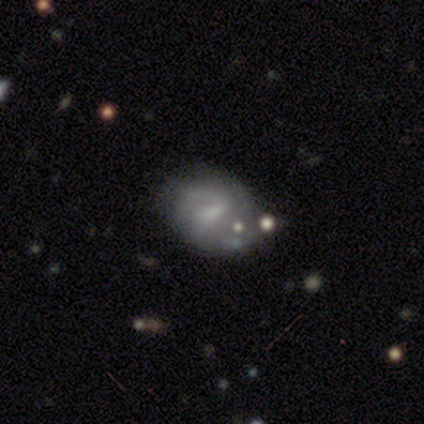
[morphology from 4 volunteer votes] featured or disk 50%, smooth 25%, star or artifact 25%. Down the decision tree: edge-on disk — no (100%); bar — no (100%); spiral arms — no (100%); bulge size — small (50%, tied with none); merging — none (100%).